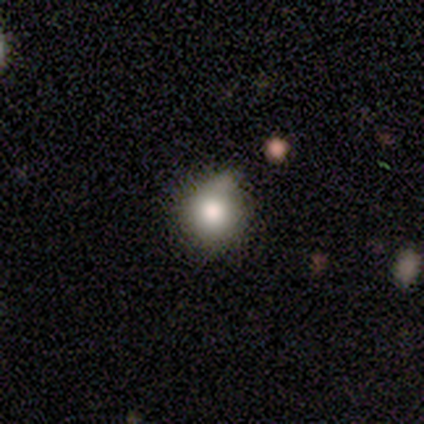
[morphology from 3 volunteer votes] Smooth or featured?
  - smooth: 100% *
  - featured or disk: 0%
  - star or artifact: 0%
How rounded?
  - round: 67% *
  - in between: 33%
  - cigar-shaped: 0%
Merging?
  - none: 67% *
  - minor disturbance: 33%
  - major disturbance: 0%
  - merger: 0%